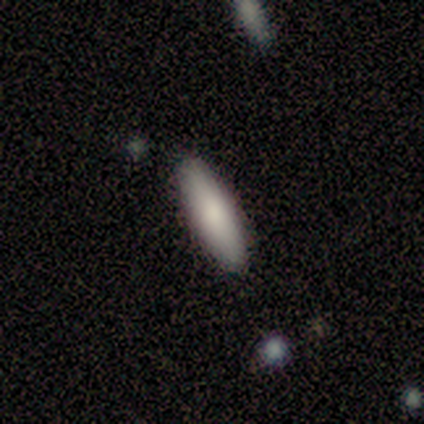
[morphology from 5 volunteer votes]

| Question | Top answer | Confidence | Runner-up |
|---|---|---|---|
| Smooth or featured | smooth | 80% | star or artifact (20%) |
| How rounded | in between | 50% | tied: cigar-shaped (50%) |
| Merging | none | 100% | — |